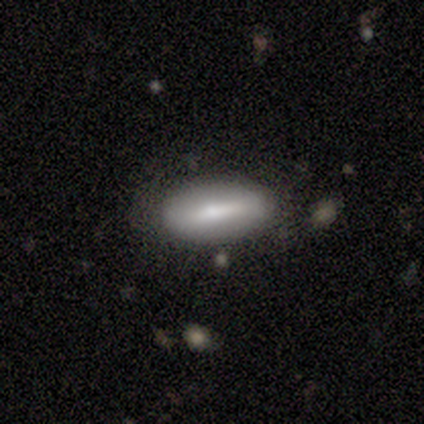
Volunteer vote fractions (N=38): A smooth galaxy with no disk features (66%) that is in between round and cigar-shaped (92%).

Vote fractions:
- Smooth or featured? smooth: 66% / featured or disk: 29% / star or artifact: 5%
- How rounded? in between: 92% / round: 4% / cigar-shaped: 4%
- Merging? none: 69% / minor disturbance: 17% / major disturbance: 8% / merger: 6%